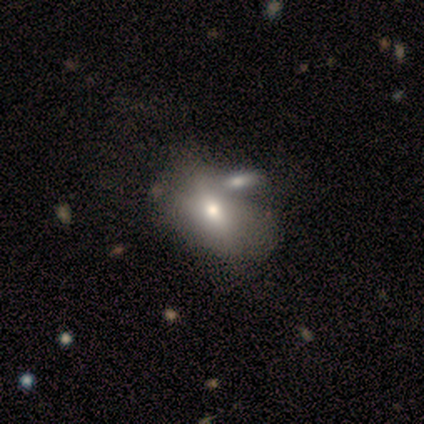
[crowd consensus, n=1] A smooth galaxy with no disk features (100%) that is in between round and cigar-shaped (100%). Merging: minor disturbance (100%).